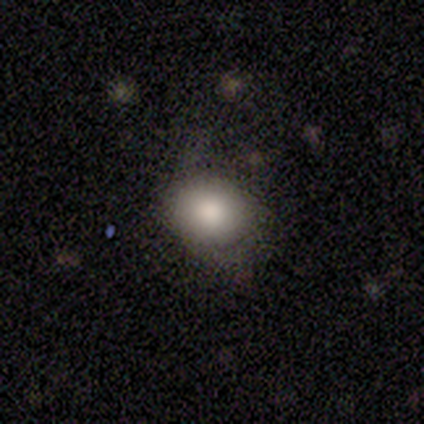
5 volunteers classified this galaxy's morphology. Smooth or featured? 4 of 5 (80%) said smooth. How rounded? 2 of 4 (50%, tied with in between) said round. Merging? 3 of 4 (75%) said none.